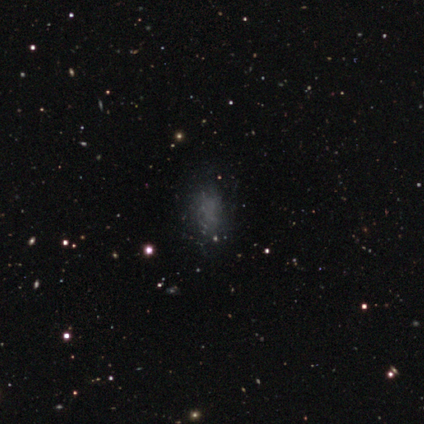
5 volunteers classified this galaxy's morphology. Smooth or featured: smooth — 40% (tied with featured or disk — 40%)
How rounded: in between — 100%
Merging: none — 100%